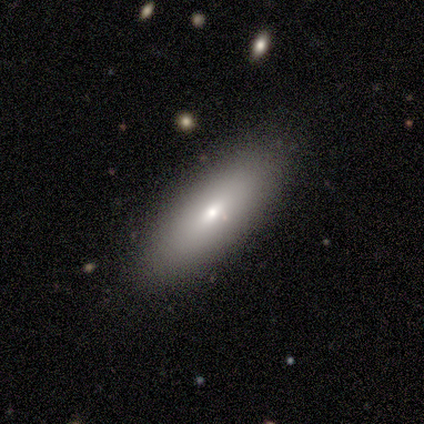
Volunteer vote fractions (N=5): Smooth or featured? 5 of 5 (100%) said smooth. How rounded? 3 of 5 (60%) said in between. Merging? 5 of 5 (100%) said none.